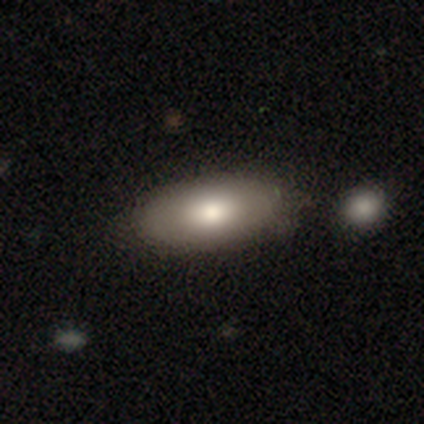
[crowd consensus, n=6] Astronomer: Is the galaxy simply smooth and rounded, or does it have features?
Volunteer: smooth — 83%.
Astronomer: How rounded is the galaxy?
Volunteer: in between — 100%.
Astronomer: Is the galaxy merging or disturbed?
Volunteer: none — 83%.